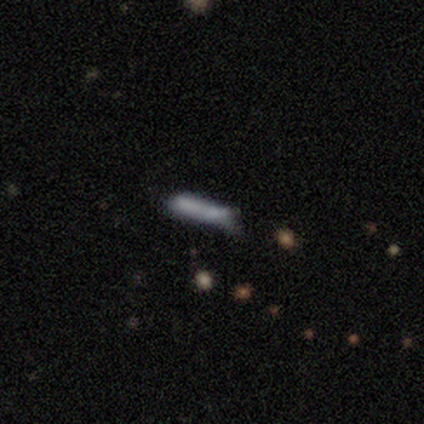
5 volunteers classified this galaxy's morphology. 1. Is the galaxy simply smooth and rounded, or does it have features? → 80% smooth, 20% star or artifact, 0% featured or disk.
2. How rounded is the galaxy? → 100% cigar-shaped, 0% round, 0% in between.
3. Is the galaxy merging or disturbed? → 75% none, 25% minor disturbance, 0% major disturbance, 0% merger.